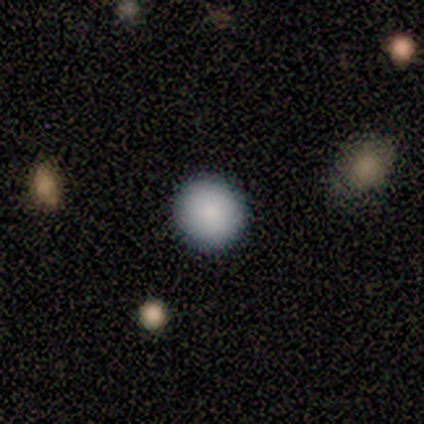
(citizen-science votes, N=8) smooth-or-featured: smooth: 88% | featured or disk: 12% | star or artifact: 0%
  how-rounded: round: 100% | in between: 0% | cigar-shaped: 0%
  merging: none: 100% | minor disturbance: 0% | major disturbance: 0% | merger: 0%